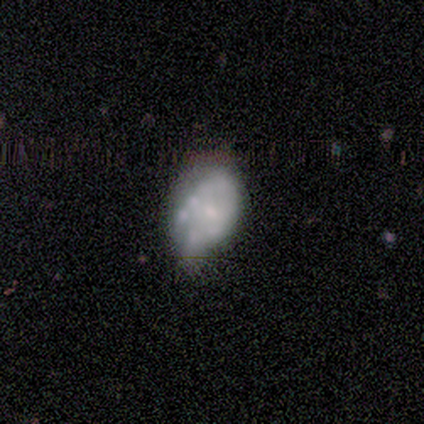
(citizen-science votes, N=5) featured or disk 80%, smooth 20%, star or artifact 0%. Down the decision tree: edge-on disk — no (100%); bar — no (100%); spiral arms — no (100%); bulge size — moderate (50%); merging — none (40%, tied with minor disturbance).